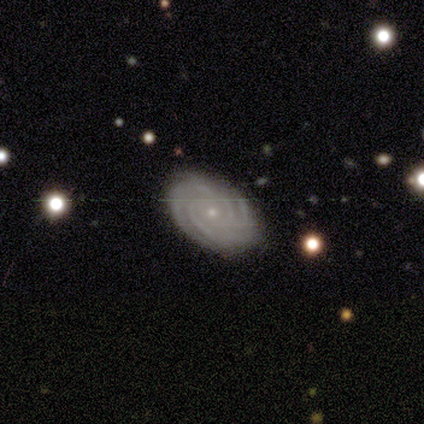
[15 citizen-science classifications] A featured or disk galaxy (100%) with no bar (77%), 4 (31%, tied with can't tell) tight (92%) spiral arms (100%) and a small central bulge (77%). Merging: none (93%).